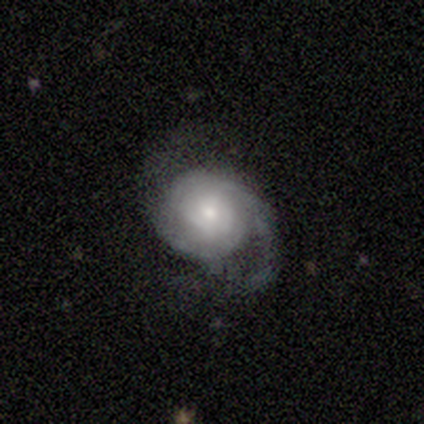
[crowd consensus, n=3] Overall: featured or disk (100%). Edge-on disk: no (100%). Bar: no (67%; weak 33%). Spiral arms: yes (100%). Spiral arm count: 2 (67%; 1 33%). Spiral winding: medium (67%; tight 33%). Bulge size: small (67%; moderate 33%). Merging: none (67%; minor disturbance 33%).